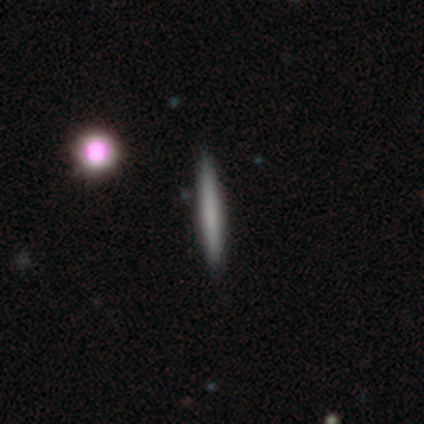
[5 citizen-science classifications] Morphology: type=smooth (40%, tied with star or artifact); roundness=cigar-shaped (100%); merging=none (67%).